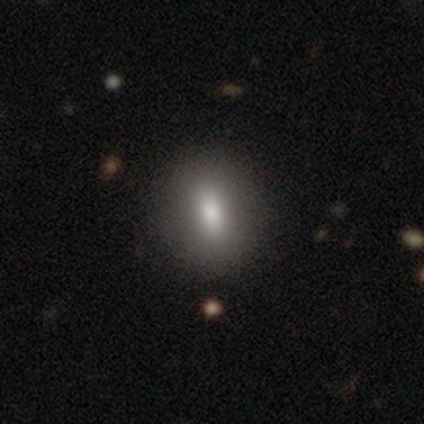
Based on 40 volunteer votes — Overall: smooth (90%). How rounded: in between (50%; round 42%). Merging: none (69%).